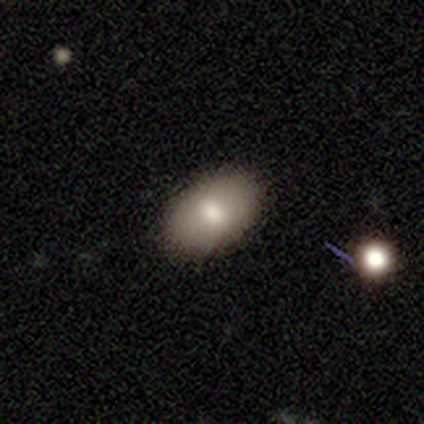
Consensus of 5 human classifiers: smooth 80%, featured or disk 20%, star or artifact 0%. Down the decision tree: how rounded — in between (100%); merging — none (80%).